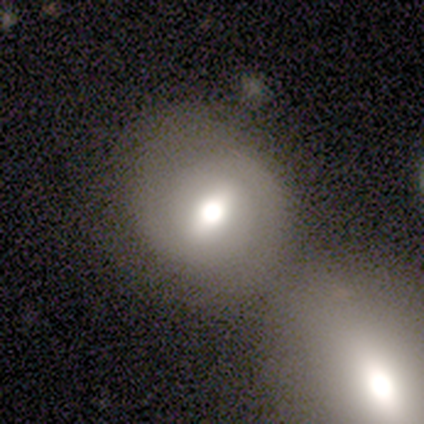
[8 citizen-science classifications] Volunteers were most divided on "how rounded": round: 60%, in between: 40%, cigar-shaped: 0%. More confident: merging — merger (75%); smooth or featured — smooth (62%).